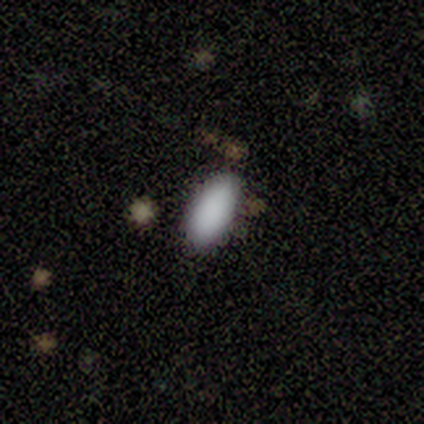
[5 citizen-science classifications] A smooth galaxy with no disk features (80%) that is in between round and cigar-shaped (100%). Merging: none (100%).